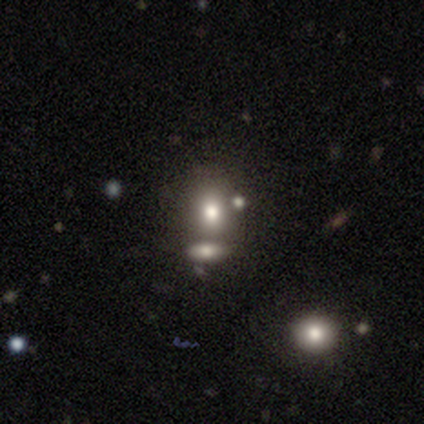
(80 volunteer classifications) Overall: smooth (79%). How rounded: round (57%; in between 41%). Merging: none (39%; merger 37%).